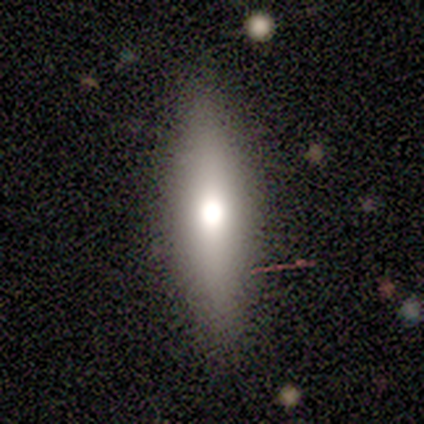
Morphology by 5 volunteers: Smooth or featured? 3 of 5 (60%) said smooth. How rounded? 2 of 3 (67%) said in between. Merging? 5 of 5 (100%) said none.